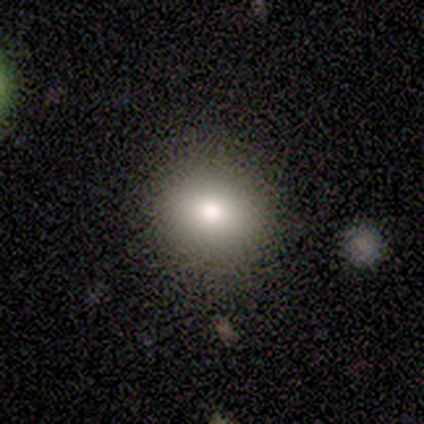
This appears to be a smooth galaxy with no disk features (100%) that is round (100%). Merging: none (80%).